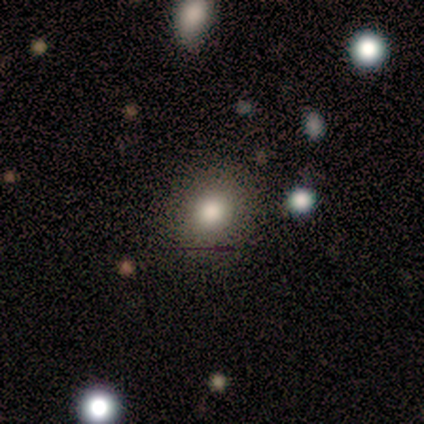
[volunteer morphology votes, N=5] Smooth or featured?
  - smooth: 80% *
  - featured or disk: 20%
  - star or artifact: 0%
How rounded?
  - round: 50% * (tied)
  - in between: 50% * (tied)
  - cigar-shaped: 0%
Merging?
  - none: 80% *
  - minor disturbance: 20%
  - major disturbance: 0%
  - merger: 0%